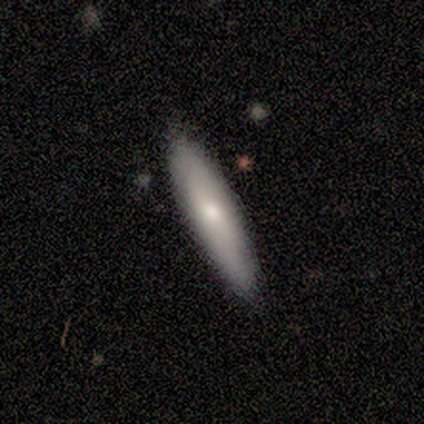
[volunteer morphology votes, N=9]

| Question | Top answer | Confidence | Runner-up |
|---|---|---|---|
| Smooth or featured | smooth | 56% | featured or disk (44%) |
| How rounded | cigar-shaped | 100% | — |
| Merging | none | 89% | minor disturbance (11%) |